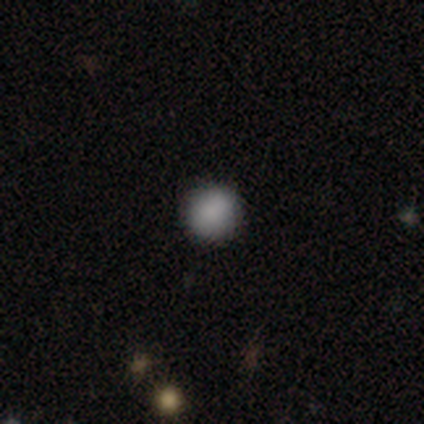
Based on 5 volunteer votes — Smooth or featured? 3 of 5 (60%) said smooth. How rounded? 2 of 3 (67%) said round. Merging? 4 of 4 (100%) said none.